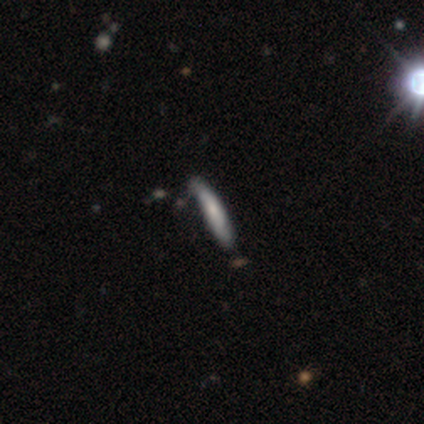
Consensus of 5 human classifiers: Overall: smooth (80%). How rounded: cigar-shaped (100%). Merging: minor disturbance (60%; none 40%).